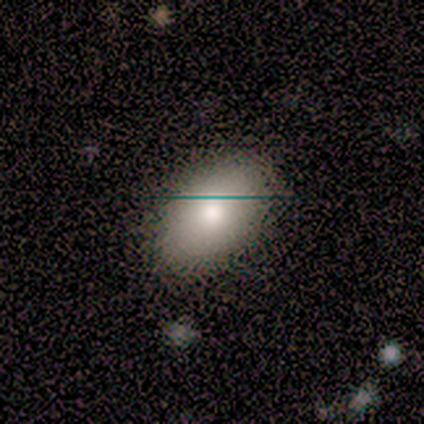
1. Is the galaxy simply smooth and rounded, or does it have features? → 100% smooth, 0% featured or disk, 0% star or artifact.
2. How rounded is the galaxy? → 100% in between, 0% round, 0% cigar-shaped.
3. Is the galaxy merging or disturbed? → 60% none, 40% minor disturbance, 0% major disturbance, 0% merger.